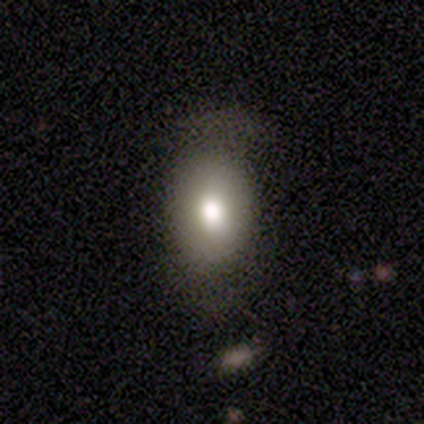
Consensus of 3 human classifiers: Morphology: type=smooth (67%); roundness=round (50%, tied with in between); merging=none (67%).